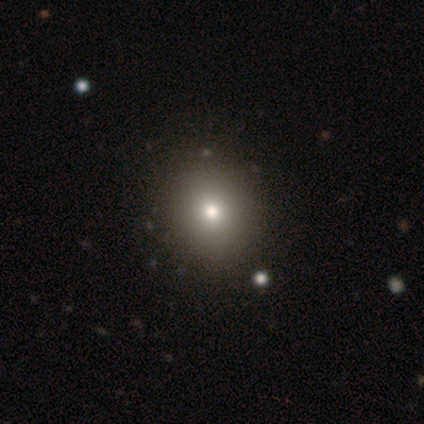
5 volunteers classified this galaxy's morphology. Q: Smooth or featured?
A: smooth (100%)
Q: How rounded?
A: round (100%)
Q: Merging?
A: none (60%); runner-up: minor disturbance (20%)